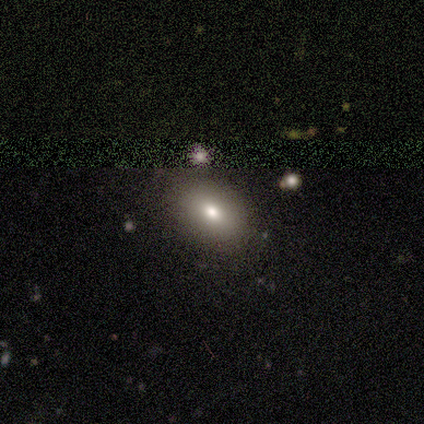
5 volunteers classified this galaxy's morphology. A smooth galaxy with no disk features (60%) that is in between round and cigar-shaped (100%). Merging: none (100%).